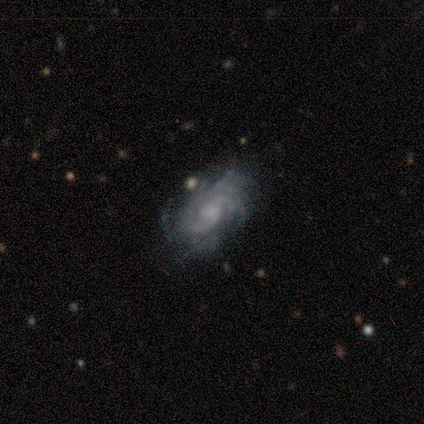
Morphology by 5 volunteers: A featured or disk galaxy (100%) with no bar (80%), 3 (40%, tied with can't tell) tight (40%, tied with loose) spiral arms (100%) and a moderate central bulge (40%, tied with small).

Vote fractions:
- Smooth or featured? featured or disk: 100% / smooth: 0% / star or artifact: 0%
- Edge-on disk? no: 100% / yes: 0%
- Bar? no: 80% / weak: 20% / strong: 0%
- Spiral arms? yes: 100% / no: 0%
- Spiral winding? tight: 40% (tied) / loose: 40% (tied) / medium: 20%
- Spiral arm count? 3: 40% (tied) / can't tell: 40% (tied) / 2: 20% / 1: 0% / 4: 0% / more than 4: 0%
- Bulge size? moderate: 40% (tied) / small: 40% (tied) / large: 20% / dominant: 0% / none: 0%
- Merging? none: 100% / minor disturbance: 0% / major disturbance: 0% / merger: 0%